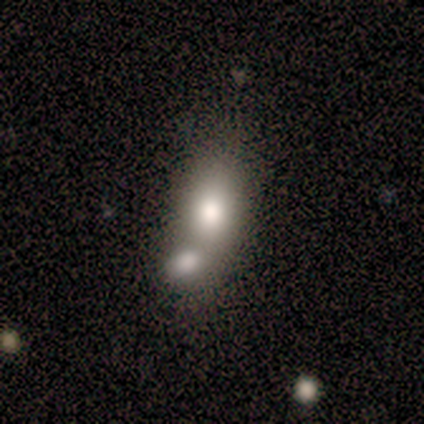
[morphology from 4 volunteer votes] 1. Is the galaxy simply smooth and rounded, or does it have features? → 50% featured or disk, 25% smooth, 25% star or artifact.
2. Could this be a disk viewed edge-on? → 100% no, 0% yes.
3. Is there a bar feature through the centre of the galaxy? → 100% no, 0% strong, 0% weak.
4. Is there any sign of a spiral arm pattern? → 100% no, 0% yes.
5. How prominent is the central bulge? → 50% large (tied), 50% moderate (tied), 0% dominant, 0% small, 0% none.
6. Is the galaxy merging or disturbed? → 67% merger, 33% none, 0% minor disturbance, 0% major disturbance.